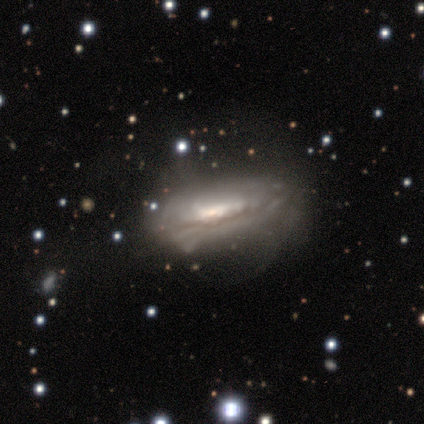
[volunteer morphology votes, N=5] A featured or disk galaxy (80%) viewed edge-on (50%, tied with no) with a rounded central bulge (100%). Merging: none (80%).